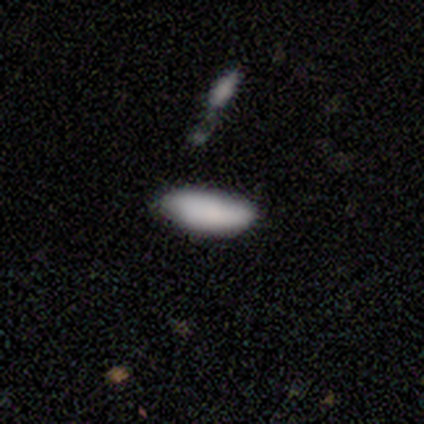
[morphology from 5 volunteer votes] smooth-or-featured: smooth: 100% | featured or disk: 0% | star or artifact: 0%
  how-rounded: in between: 100% | round: 0% | cigar-shaped: 0%
  merging: none: 80% | merger: 20% | minor disturbance: 0% | major disturbance: 0%